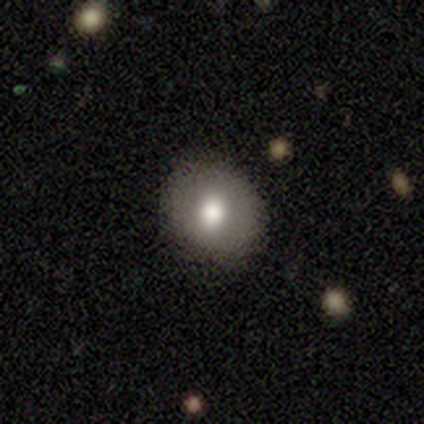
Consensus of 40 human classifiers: Q: Smooth or featured?
A: smooth (82%); runner-up: featured or disk (15%)
Q: How rounded?
A: round (70%); runner-up: in between (30%)
Q: Merging?
A: none (85%); runner-up: minor disturbance (15%)